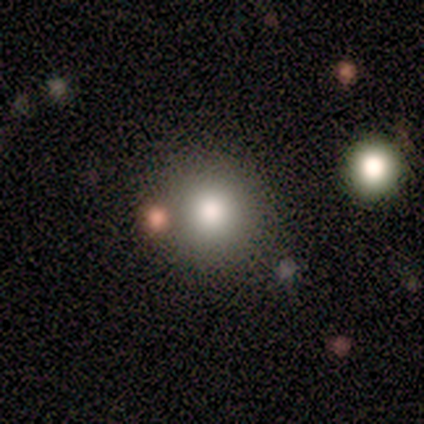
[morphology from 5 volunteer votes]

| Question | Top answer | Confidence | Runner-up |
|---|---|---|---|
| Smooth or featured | smooth | 60% | featured or disk (40%) |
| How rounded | round | 100% | — |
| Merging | none | 60% | minor disturbance (40%) |